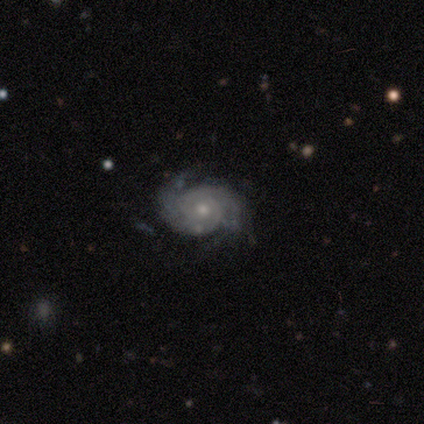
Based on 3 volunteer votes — A featured or disk galaxy (100%) with no bar (100%), 2 (67%) tight (67%) spiral arms (100%) and a moderate central bulge (67%). Merging: minor disturbance (67%).